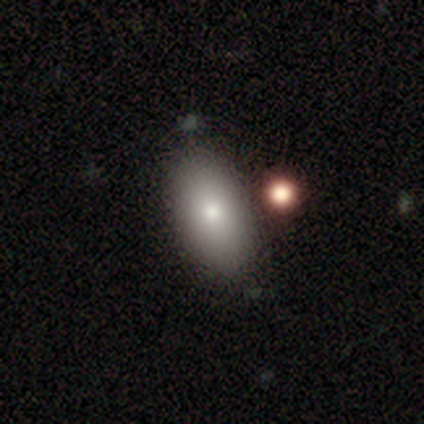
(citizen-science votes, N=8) Volunteers were most divided on "smooth or featured": smooth: 62%, featured or disk: 38%, star or artifact: 0%. More confident: how rounded — in between (100%); merging — none (88%).